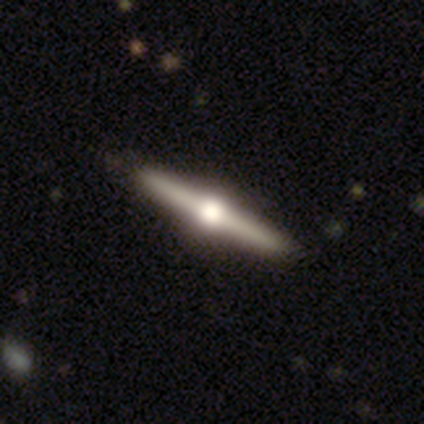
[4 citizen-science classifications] Smooth or featured: featured or disk — 100%
Edge-on disk: yes — 100%
Edge-on bulge: rounded — 75% (none — 25%)
Merging: none — 75% (minor disturbance — 25%)